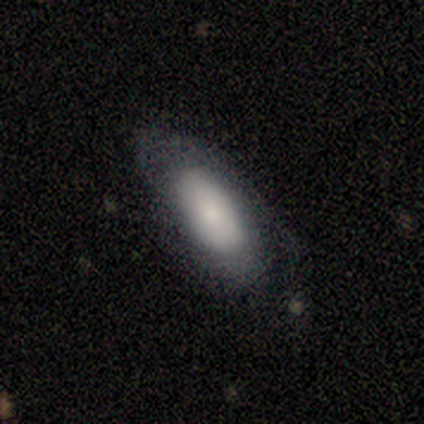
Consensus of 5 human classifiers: Morphology: type=smooth (80%); roundness=in between (100%); merging=none (60%).